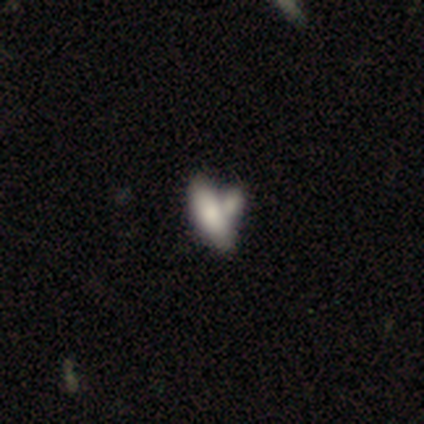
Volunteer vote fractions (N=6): This appears to be a smooth galaxy with no disk features (100%) that is in between round and cigar-shaped (67%). Merging: merger (50%).